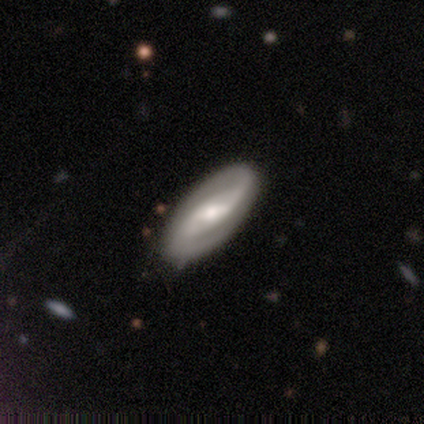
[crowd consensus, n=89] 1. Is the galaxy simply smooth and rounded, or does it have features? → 83% featured or disk, 13% smooth, 3% star or artifact.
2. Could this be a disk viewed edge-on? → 88% no, 12% yes.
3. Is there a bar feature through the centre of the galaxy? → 52% weak, 35% strong, 12% no.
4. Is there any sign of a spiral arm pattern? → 89% yes, 11% no.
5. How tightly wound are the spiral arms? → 36% medium, 34% loose, 29% tight.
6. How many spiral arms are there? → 95% 2, 5% can't tell, 0% 1, 0% 3, 0% 4, 0% more than 4.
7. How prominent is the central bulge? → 54% moderate, 35% small, 11% large, 0% dominant, 0% none.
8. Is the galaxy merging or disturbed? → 85% none, 12% minor disturbance, 3% major disturbance, 0% merger.